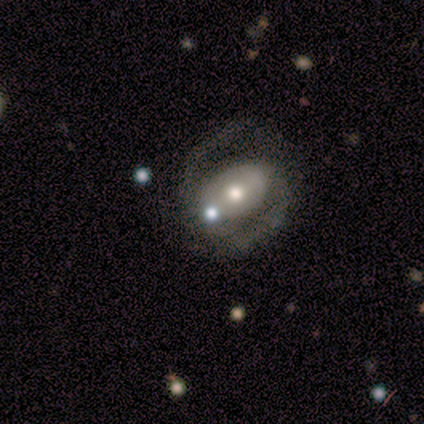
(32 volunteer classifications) Overall: featured or disk (59%; smooth 22%). Edge-on disk: no (100%). Bar: weak (37%, tied with no). Spiral arms: yes (95%). Spiral arm count: 2 (89%). Spiral winding: medium (72%). Bulge size: moderate (74%). Merging: none (65%).